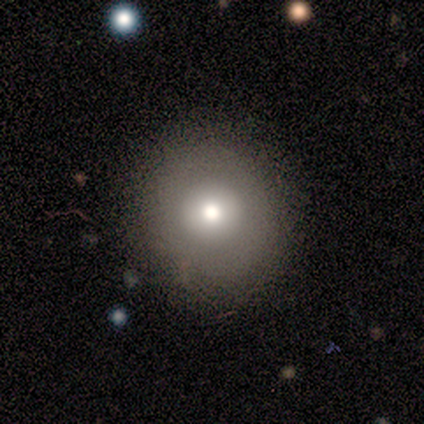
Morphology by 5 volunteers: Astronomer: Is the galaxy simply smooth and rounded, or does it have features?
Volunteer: smooth — 100%.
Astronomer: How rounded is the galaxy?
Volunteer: round — 80%.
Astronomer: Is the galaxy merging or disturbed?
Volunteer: none — 100%.